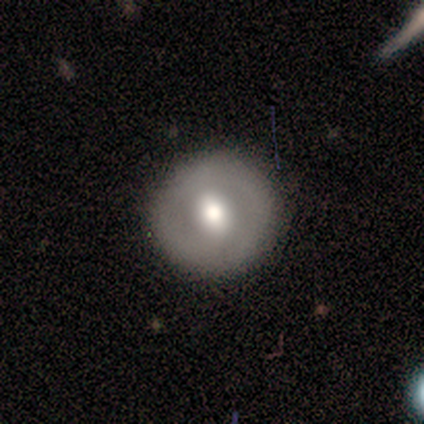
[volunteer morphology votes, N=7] smooth-or-featured: smooth: 71% | featured or disk: 29% | star or artifact: 0%
  how-rounded: round: 100% | in between: 0% | cigar-shaped: 0%
  merging: none: 71% | minor disturbance: 29% | major disturbance: 0% | merger: 0%